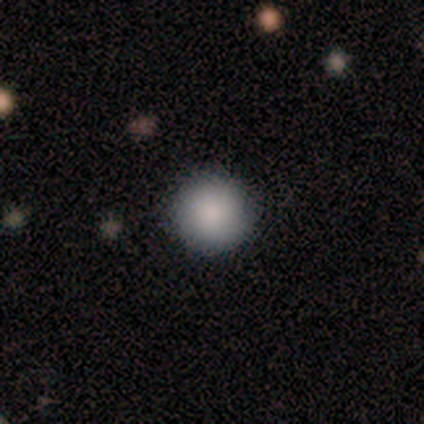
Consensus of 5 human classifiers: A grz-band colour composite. It shows a smooth galaxy with no disk features (80%) that is round (100%). Merging: none (100%).